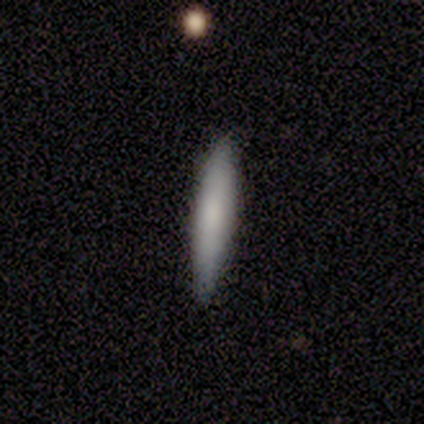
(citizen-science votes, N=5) Smooth or featured? smooth (100%)
How rounded? cigar-shaped (100%)
Merging? none (100%)